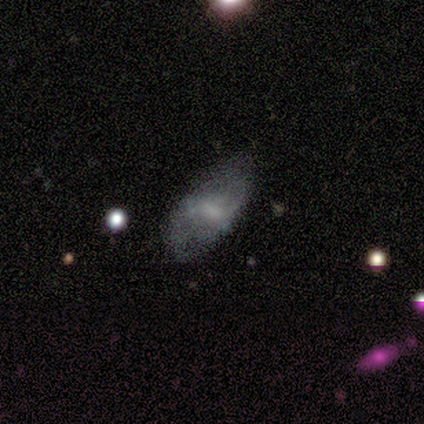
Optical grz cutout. It shows a featured or disk galaxy (100%) with no bar (100%), no spiral arms (100%) and a moderate central bulge (50%, tied with none). Merging: minor disturbance (50%, tied with major disturbance).